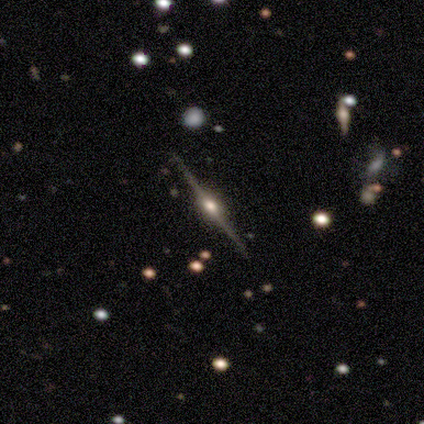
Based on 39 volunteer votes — This appears to be a featured or disk galaxy (95%) viewed edge-on (100%) with a rounded central bulge (92%). Merging: none (100%).